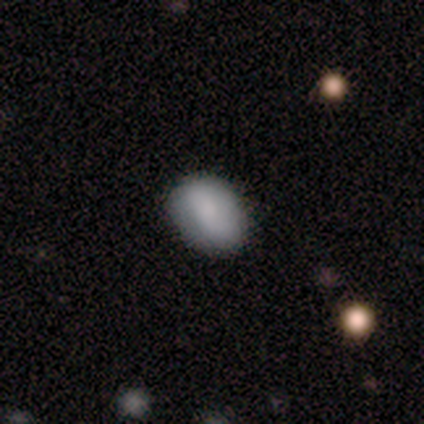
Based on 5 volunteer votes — smooth-or-featured: featured or disk: 60% | smooth: 20% | star or artifact: 20%
  disk-edge-on: no: 100% | yes: 0%
    bar: no: 67% | weak: 33% | strong: 0%
    has-spiral-arms: yes: 67% | no: 33%
      spiral-winding: medium: 50% (tied) | loose: 50% (tied) | tight: 0%
      spiral-arm-count: 2: 100% | 1: 0% | 3: 0% | 4: 0% | more than 4: 0% | can't tell: 0%
    bulge-size: large: 33% (tied) | moderate: 33% (tied) | none: 33% (tied) | dominant: 0% | small: 0%
  merging: none: 100% | minor disturbance: 0% | major disturbance: 0% | merger: 0%